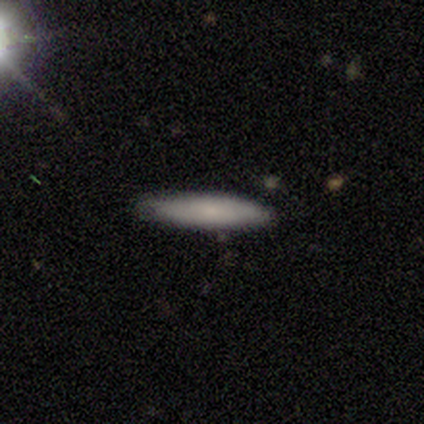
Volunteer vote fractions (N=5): This appears to be a smooth galaxy with no disk features (80%) that is cigar-shaped (100%). Merging: none (80%).